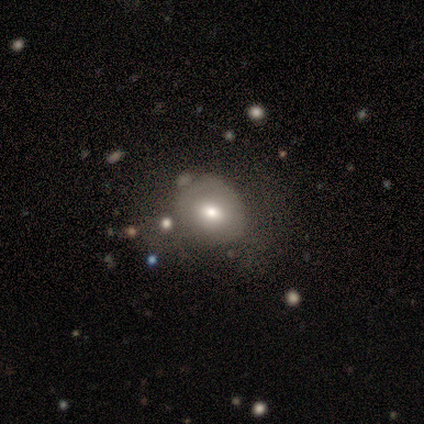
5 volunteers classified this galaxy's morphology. Smooth or featured? 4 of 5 (80%) said smooth. How rounded? 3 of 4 (75%) said round. Merging? 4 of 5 (80%) said none.